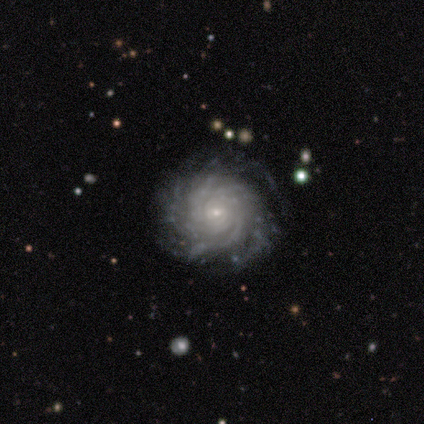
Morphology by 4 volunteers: smooth-or-featured: featured or disk: 100% | smooth: 0% | star or artifact: 0%
  disk-edge-on: no: 100% | yes: 0%
    bar: no: 100% | strong: 0% | weak: 0%
    has-spiral-arms: yes: 100% | no: 0%
      spiral-winding: tight: 75% | medium: 25% | loose: 0%
      spiral-arm-count: 3: 25% (tied) | 4: 25% (tied) | more than 4: 25% (tied) | can't tell: 25% (tied) | 1: 0% | 2: 0%
    bulge-size: small: 75% | moderate: 25% | dominant: 0% | large: 0% | none: 0%
  merging: none: 100% | minor disturbance: 0% | major disturbance: 0% | merger: 0%